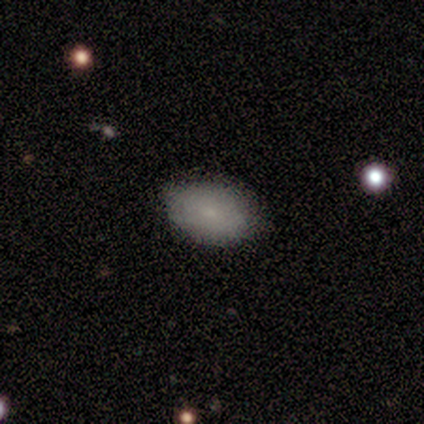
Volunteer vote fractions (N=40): Overall: smooth (78%). How rounded: in between (94%). Merging: none (76%).